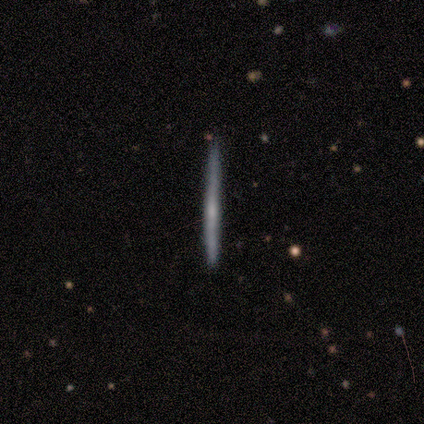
Morphology: type=featured or disk (60%); edge-on=yes (67%); edge-on bulge=boxy (50%, tied with rounded); merging=none (100%).